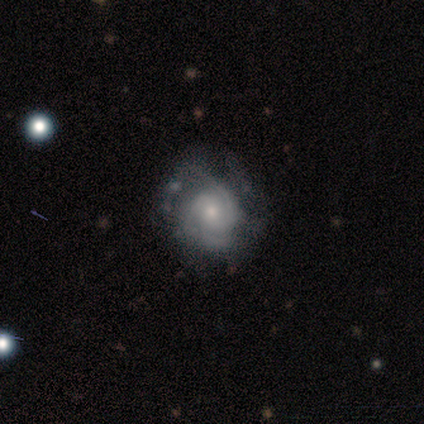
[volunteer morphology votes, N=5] A featured or disk galaxy (100%) with no bar (100%), 2 (60%) tight (80%) spiral arms (100%) and a moderate central bulge (80%). Merging: none (80%).